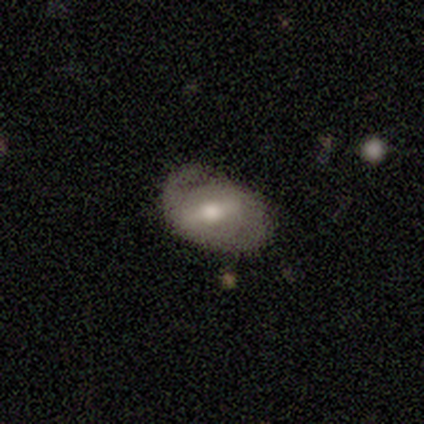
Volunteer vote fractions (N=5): Volunteers were most divided on "spiral arms" (2-way tie): yes: 50%, no: 50%; "spiral winding" (2-way tie): tight: 50%, medium: 50%, loose: 0%; "merging" (2-way tie): none: 50%, minor disturbance: 50%, major disturbance: 0%, merger: 0%. More confident: edge-on disk — no (100%); spiral arm count — 1 (100%); smooth or featured — featured or disk (80%); bar — strong (75%); bulge size — moderate (75%).